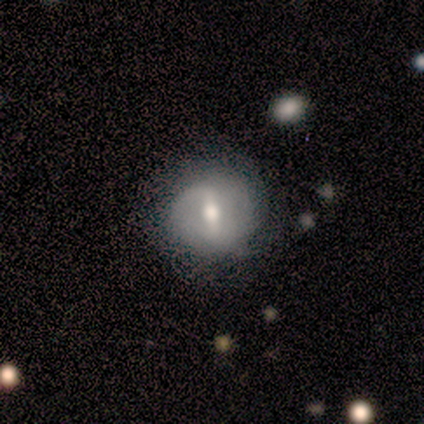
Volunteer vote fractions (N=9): Smooth or featured? 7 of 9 (78%) said featured or disk. Edge-on disk? 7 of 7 (100%) said no. Bar? 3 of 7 (43%, tied with no) said strong. Spiral arms? 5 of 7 (71%) said yes. Spiral winding? 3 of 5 (60%) said loose. Spiral arm count? 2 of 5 (40%, tied with 2) said 1. Bulge size? 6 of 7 (86%) said moderate. Merging? 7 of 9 (78%) said none.